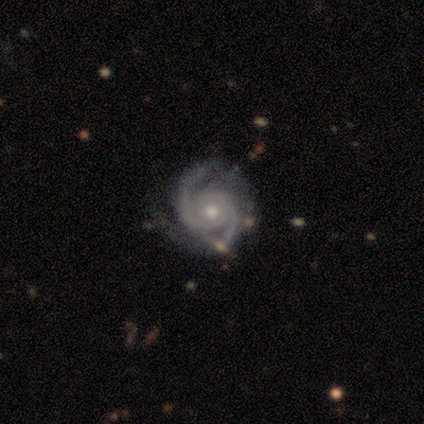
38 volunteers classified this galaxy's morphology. Smooth or featured? 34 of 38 (89%) said featured or disk. Edge-on disk? 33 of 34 (97%) said no. Bar? 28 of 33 (85%) said no. Spiral arms? 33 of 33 (100%) said yes. Spiral winding? 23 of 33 (70%) said tight. Spiral arm count? 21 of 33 (64%) said 2. Bulge size? 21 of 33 (64%) said moderate. Merging? 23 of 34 (68%) said none.